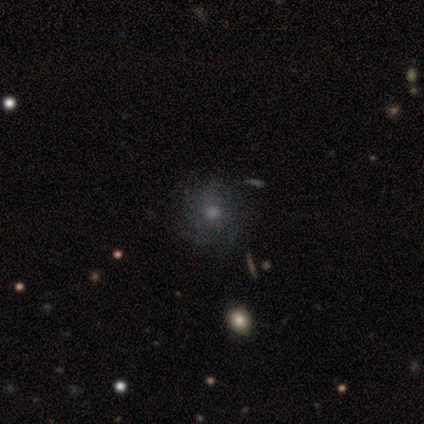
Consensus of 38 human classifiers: This is possibly a smooth galaxy (47%). How rounded: likely round (78%). Merging: possibly none (56%).